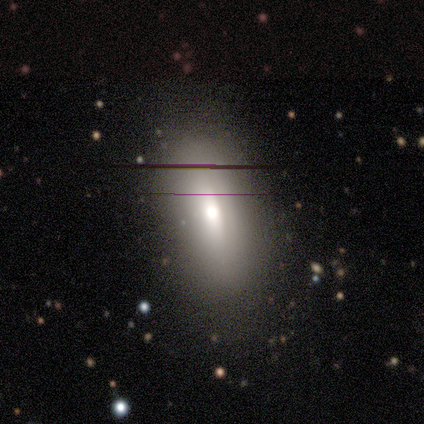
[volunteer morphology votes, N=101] Volunteers were most divided on "smooth or featured": smooth: 65%, featured or disk: 23%, star or artifact: 12%. More confident: how rounded — in between (82%); merging — none (56%).